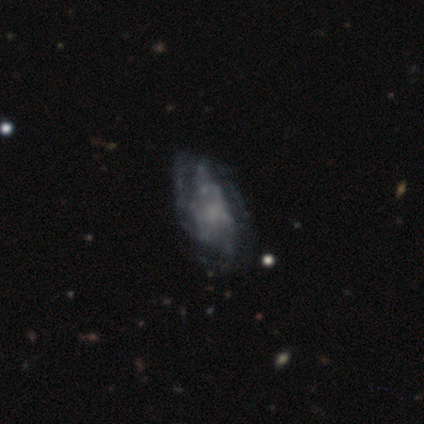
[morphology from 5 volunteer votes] Smooth or featured? featured or disk (100%)
Edge-on disk? no (100%)
Bar? no (60%)
Spiral arms? no (80%)
Bulge size? small (60%)
Merging? none (40%, tied with major disturbance)